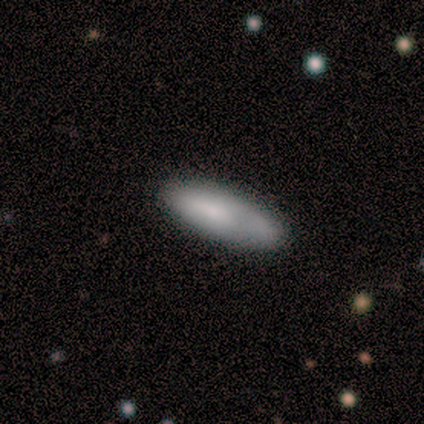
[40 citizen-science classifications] Morphology: type=smooth (82%); roundness=cigar-shaped (55%); merging=none (78%).